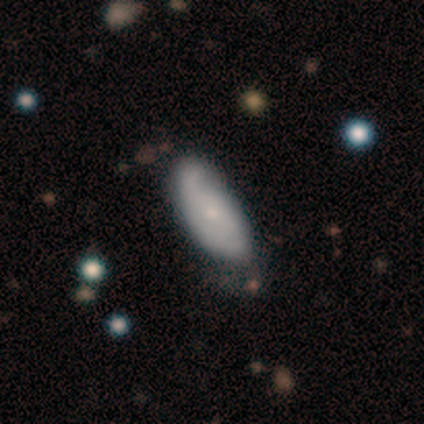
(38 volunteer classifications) Q: Smooth or featured?
A: smooth (47%); tied with: featured or disk (47%)
Q: How rounded?
A: in between (72%); runner-up: cigar-shaped (28%)
Q: Merging?
A: none (42%); runner-up: minor disturbance (31%)